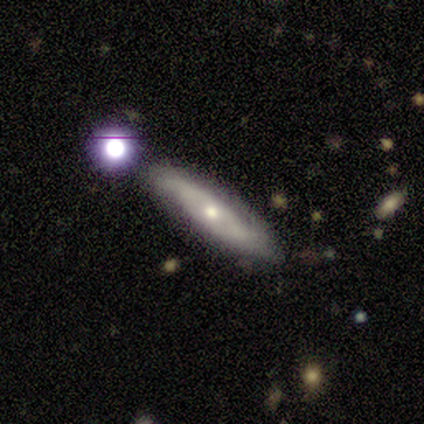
Overall: featured or disk (50%; smooth 25%). Edge-on disk: yes (50%, tied with no). Edge-on bulge: none (100%). Merging: none (67%; minor disturbance 33%).